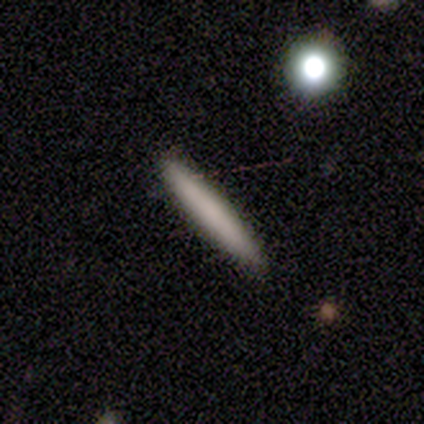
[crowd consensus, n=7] Morphology: type=smooth (71%); roundness=cigar-shaped (100%); merging=none (100%).